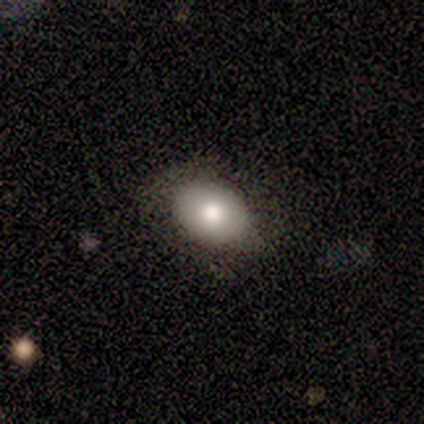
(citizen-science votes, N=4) Overall: smooth (100%). How rounded: in between (100%). Merging: none (50%, tied with minor disturbance).